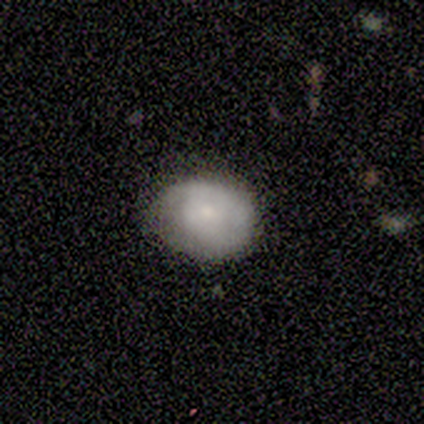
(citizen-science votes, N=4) smooth 75%, featured or disk 25%, star or artifact 0%. Down the decision tree: how rounded — in between (67%); merging — none (75%).